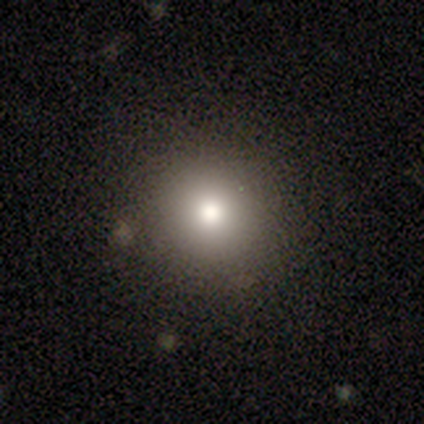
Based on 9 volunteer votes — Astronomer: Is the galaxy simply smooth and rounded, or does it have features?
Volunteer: smooth — 89%.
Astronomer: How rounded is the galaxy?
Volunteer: round — 100%.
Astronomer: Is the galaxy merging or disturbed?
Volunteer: none — 100%.